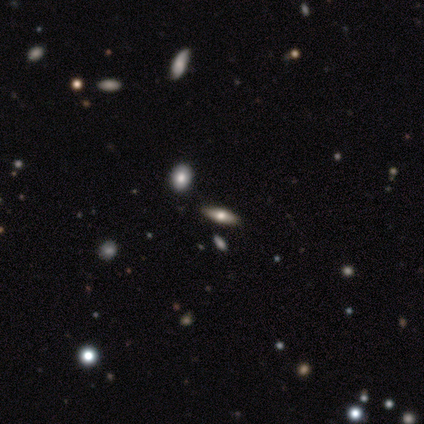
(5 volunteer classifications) Smooth or featured?
  - smooth: 80% *
  - featured or disk: 20%
  - star or artifact: 0%
How rounded?
  - in between: 50% * (tied)
  - cigar-shaped: 50% * (tied)
  - round: 0%
Merging?
  - none: 100% *
  - minor disturbance: 0%
  - major disturbance: 0%
  - merger: 0%